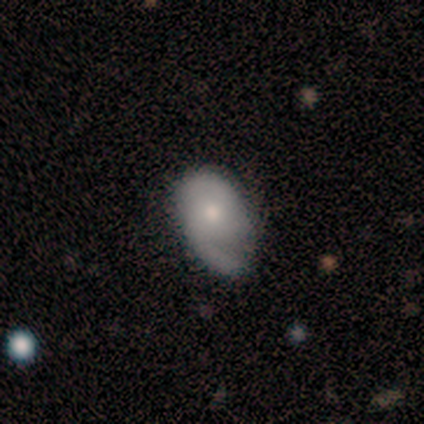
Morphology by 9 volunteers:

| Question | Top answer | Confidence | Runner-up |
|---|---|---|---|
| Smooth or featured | featured or disk | 56% | smooth (44%) |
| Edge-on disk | no | 100% | — |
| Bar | no | 100% | — |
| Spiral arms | yes | 80% | no (20%) |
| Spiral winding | loose | 50% | tight (25%) |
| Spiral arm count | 2 | 50% | 1 (25%) |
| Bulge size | moderate | 60% | small (40%) |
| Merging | none | 44% | tied: minor disturbance (44%) |